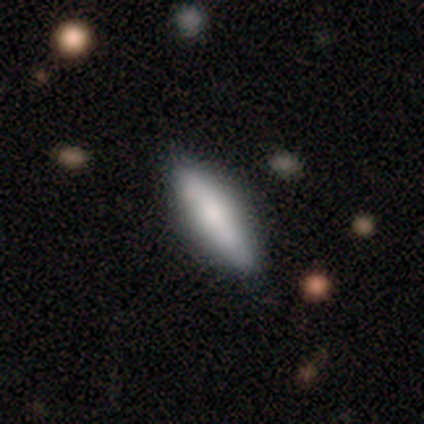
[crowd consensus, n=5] Overall: smooth (80%). How rounded: in between (50%, tied with cigar-shaped). Merging: none (60%; minor disturbance 40%).